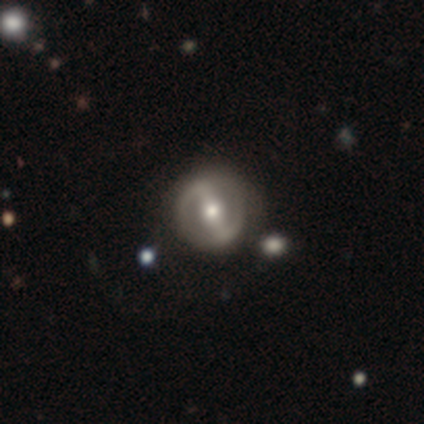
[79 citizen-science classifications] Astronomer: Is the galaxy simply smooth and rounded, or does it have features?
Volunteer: featured or disk — 80%.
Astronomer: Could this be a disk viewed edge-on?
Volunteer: no — 98%.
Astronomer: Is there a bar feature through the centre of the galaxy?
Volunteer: strong — 77%.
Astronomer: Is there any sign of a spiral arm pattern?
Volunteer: yes — 52% (runner-up: no, 48%).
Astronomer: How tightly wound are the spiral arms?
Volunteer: medium — 41% (runner-up: tight, 34%).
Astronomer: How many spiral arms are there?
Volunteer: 2 — 94%.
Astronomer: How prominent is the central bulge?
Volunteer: moderate — 79%.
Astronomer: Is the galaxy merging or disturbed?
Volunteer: none — 46%.